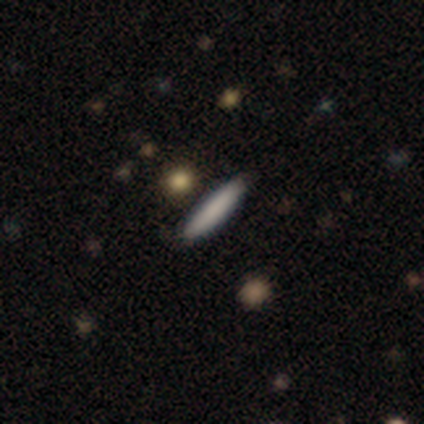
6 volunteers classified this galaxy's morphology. smooth-or-featured: smooth: 100% | featured or disk: 0% | star or artifact: 0%
  how-rounded: cigar-shaped: 67% | in between: 33% | round: 0%
  merging: none: 67% | minor disturbance: 17% | major disturbance: 17% | merger: 0%